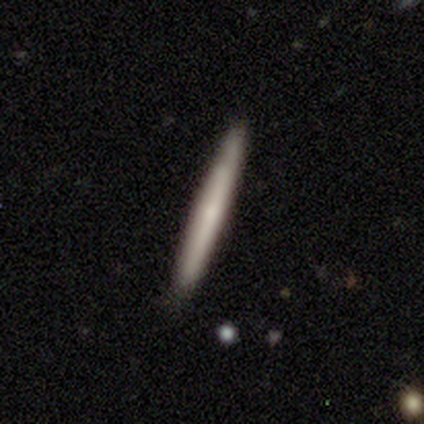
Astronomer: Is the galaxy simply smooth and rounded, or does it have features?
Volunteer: smooth — 75%.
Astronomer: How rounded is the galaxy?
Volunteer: cigar-shaped — 100%.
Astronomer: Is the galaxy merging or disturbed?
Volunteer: none — 100%.